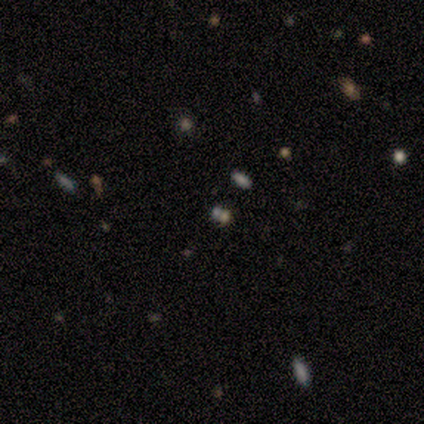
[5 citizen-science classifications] smooth_or_featured: star or artifact (p=0.80) [alt: smooth p=0.20]